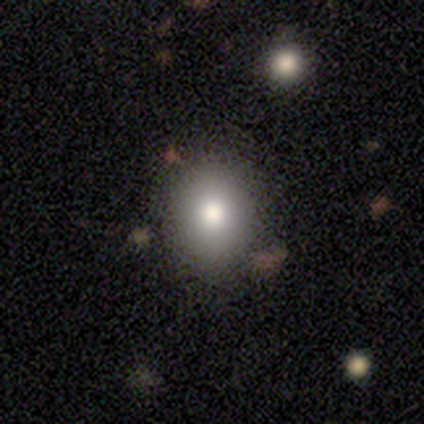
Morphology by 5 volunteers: type=smooth (60%); roundness=round (100%); merging=none (100%).